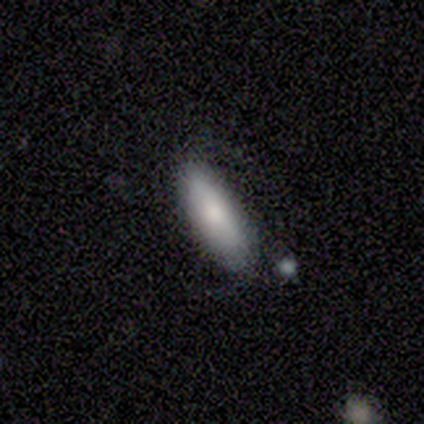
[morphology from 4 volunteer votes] type=smooth (50%, tied with featured or disk); roundness=in between (100%); merging=none (50%).